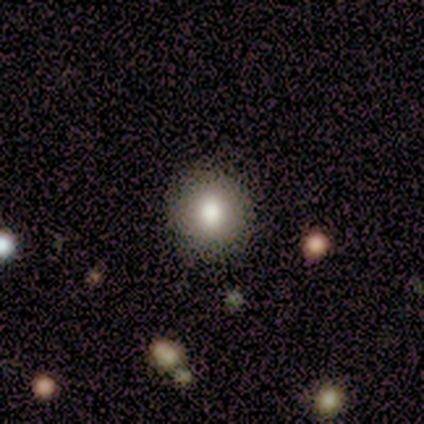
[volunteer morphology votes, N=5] type=smooth (80%); roundness=round (100%); merging=none (80%).